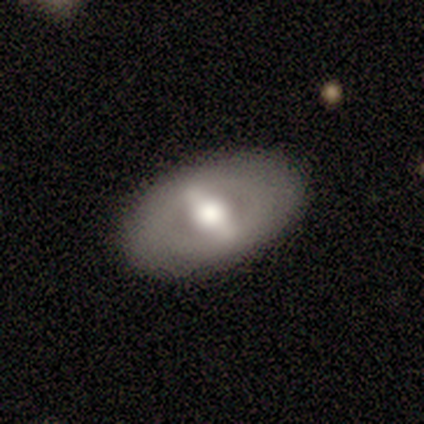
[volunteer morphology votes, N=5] type=featured or disk (60%); edge-on=no (100%); bar=strong (33%, tied with weak and no); spiral arms=no (100%); bulge=moderate (67%); merging=none (100%).